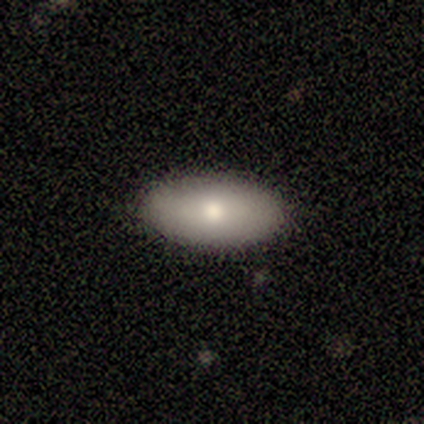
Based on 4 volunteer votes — smooth_or_featured: smooth (p=1.00)
how_rounded: in between (p=1.00)
merging: none (p=1.00)